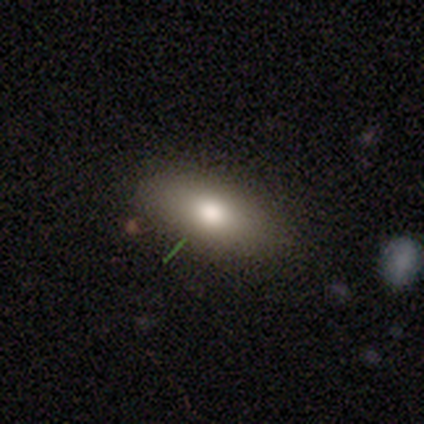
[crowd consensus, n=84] smooth 74%, featured or disk 17%, star or artifact 10%. Down the decision tree: how rounded — in between (82%); merging — none (86%).